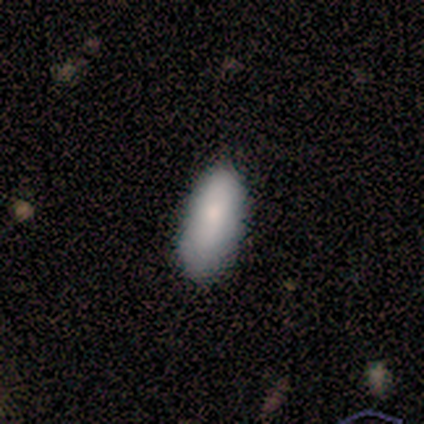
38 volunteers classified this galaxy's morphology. type=smooth (87%); roundness=in between (67%); merging=none (66%).